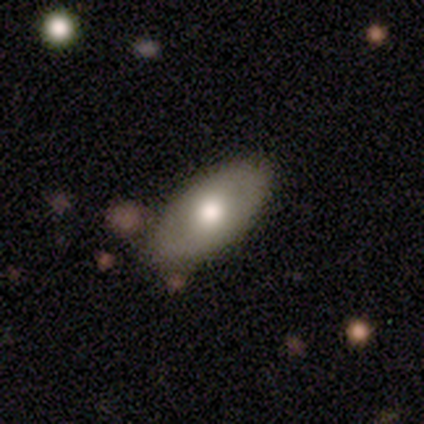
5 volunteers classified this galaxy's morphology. This appears to be a featured or disk galaxy (60%) with no bar (100%), no spiral arms (100%) and a moderate central bulge (67%). Merging: none (80%).